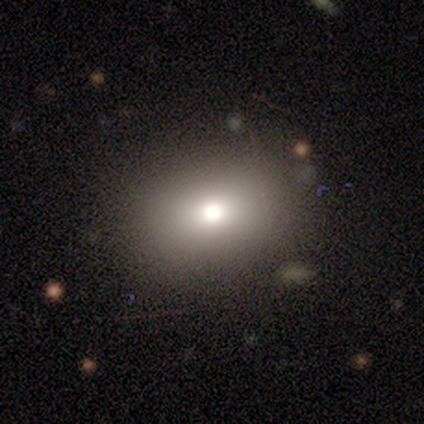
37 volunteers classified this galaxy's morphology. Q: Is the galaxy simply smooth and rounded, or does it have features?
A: smooth — 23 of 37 (62%).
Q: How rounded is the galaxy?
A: in between — 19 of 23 (83%).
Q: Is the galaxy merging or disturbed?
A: none — 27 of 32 (84%).